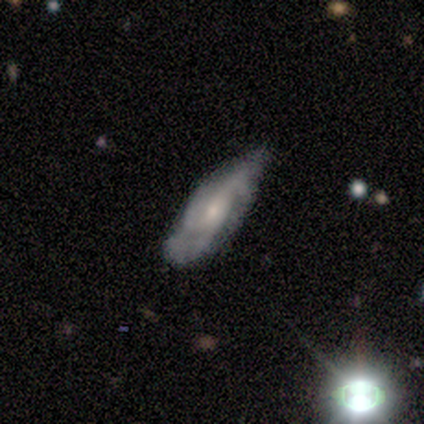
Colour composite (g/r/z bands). It shows a featured or disk galaxy (92%) with no bar (59%), 3 (67%) medium (63%) spiral arms (88%) and a small central bulge (62%). Merging: none (49%).